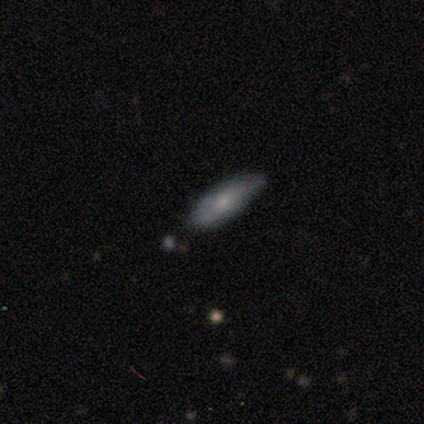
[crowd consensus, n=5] This appears to be a smooth galaxy with no disk features (80%) that is cigar-shaped (75%). Merging: none (100%).